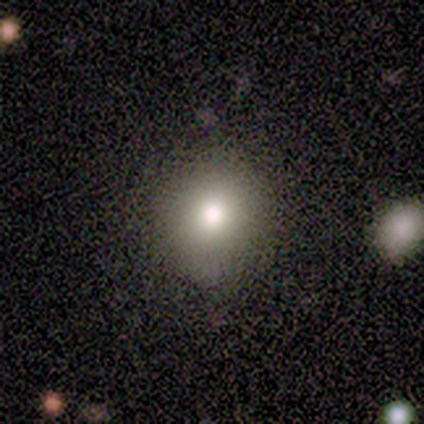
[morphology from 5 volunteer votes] smooth-or-featured: smooth: 60% | featured or disk: 20% | star or artifact: 20%
  how-rounded: round: 67% | in between: 33% | cigar-shaped: 0%
  merging: none: 75% | minor disturbance: 25% | major disturbance: 0% | merger: 0%